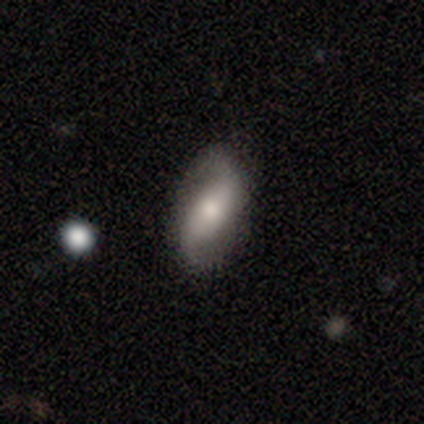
Smooth or featured? 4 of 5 (80%) said featured or disk. Edge-on disk? 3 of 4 (75%) said no. Bar? 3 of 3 (100%) said strong. Spiral arms? 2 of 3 (67%) said yes. Spiral winding? 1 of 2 (50%, tied with loose) said medium. Spiral arm count? 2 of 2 (100%) said 2. Bulge size? 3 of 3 (100%) said moderate. Merging? 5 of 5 (100%) said none.